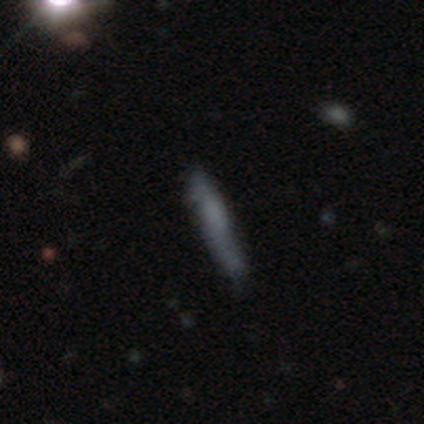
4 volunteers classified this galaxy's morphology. Smooth or featured? smooth (50%, tied with featured or disk)
How rounded? cigar-shaped (100%)
Merging? major disturbance (50%)